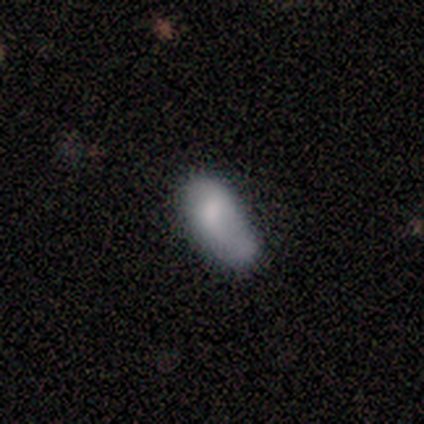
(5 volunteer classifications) smooth 60%, featured or disk 20%, star or artifact 20%. Down the decision tree: how rounded — in between (67%); merging — minor disturbance (50%).